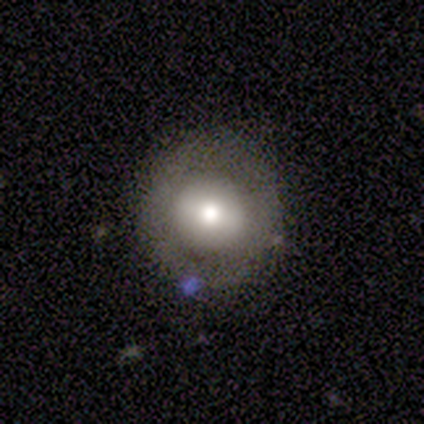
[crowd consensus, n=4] Q: Smooth or featured?
A: smooth (50%); tied with: featured or disk (50%)
Q: How rounded?
A: round (50%); tied with: in between (50%)
Q: Merging?
A: none (75%); runner-up: major disturbance (25%)